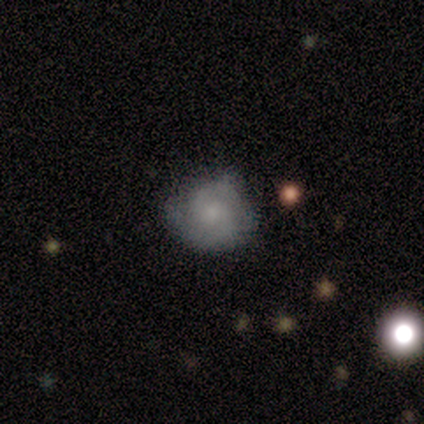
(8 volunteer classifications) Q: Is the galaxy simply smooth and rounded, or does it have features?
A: smooth — 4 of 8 (50%, tied with featured or disk).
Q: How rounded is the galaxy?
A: round — 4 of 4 (100%).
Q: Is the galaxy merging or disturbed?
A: none — 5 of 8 (62%).